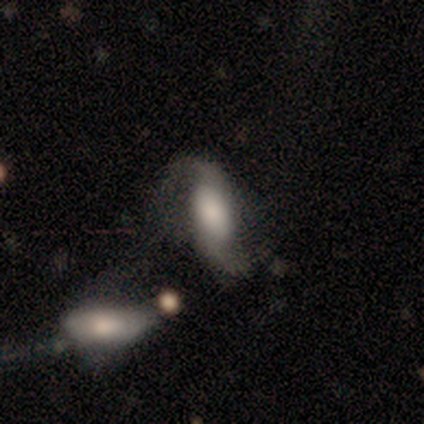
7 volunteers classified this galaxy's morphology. This appears to be a featured or disk galaxy (86%) with a weak bar (50%), 2 (100%) loose (75%) spiral arms (100%) and a small central bulge (50%). Merging: none (43%).